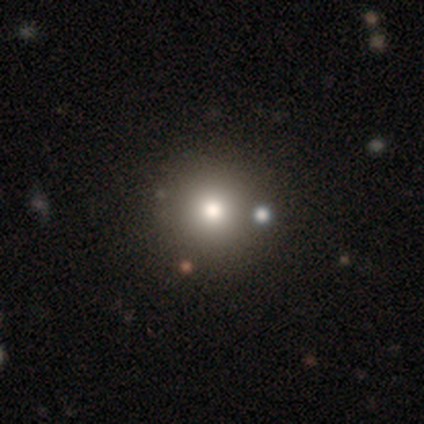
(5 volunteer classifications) Smooth or featured: smooth — 40% (tied with star or artifact — 40%)
How rounded: round — 100%
Merging: none — 100%